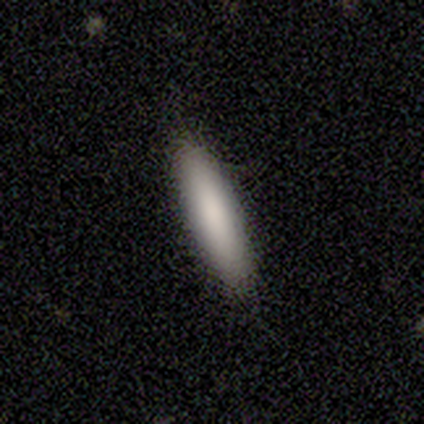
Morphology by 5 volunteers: Smooth or featured: smooth — 100%
How rounded: cigar-shaped — 100%
Merging: none — 80% (minor disturbance — 20%)